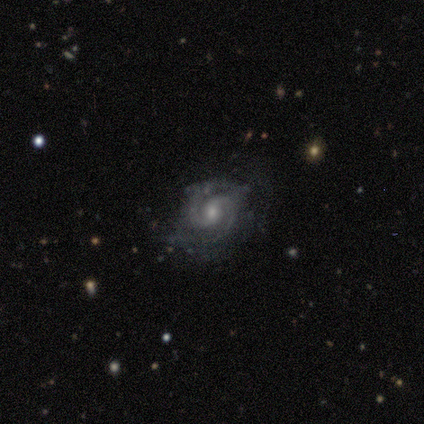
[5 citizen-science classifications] Overall: featured or disk (100%). Edge-on disk: no (100%). Bar: weak (60%; no 40%). Spiral arms: yes (100%). Spiral arm count: 2 (60%; 3 40%). Spiral winding: medium (60%; tight 40%). Bulge size: moderate (60%; small 40%). Merging: none (80%).